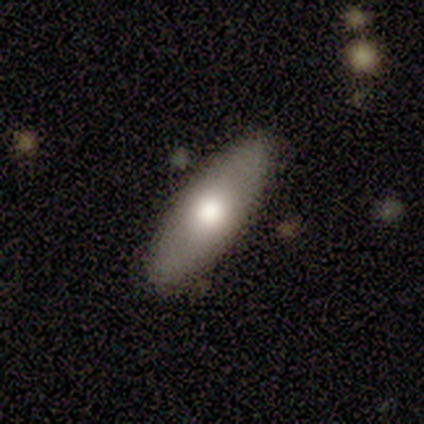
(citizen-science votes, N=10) smooth_or_featured: smooth (p=0.80) [alt: featured or disk p=0.20]
how_rounded: in between (p=0.75) [alt: cigar-shaped p=0.25]
merging: none (p=1.00)